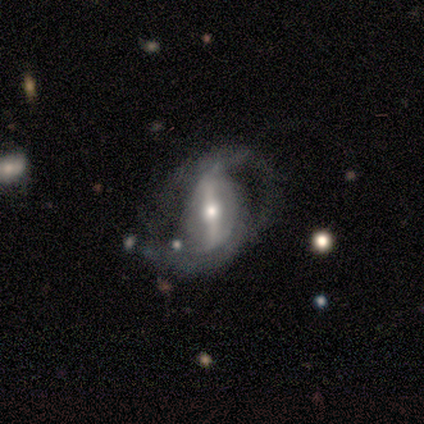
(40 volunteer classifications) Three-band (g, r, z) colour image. It shows a featured or disk galaxy (85%) with a strong bar (91%), 2 (90%) medium (45%) spiral arms (88%) and a moderate central bulge (64%). Merging: major disturbance (33%).